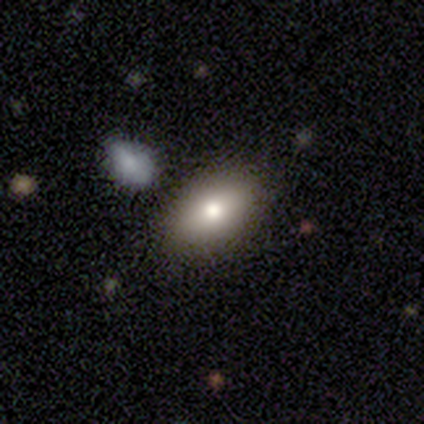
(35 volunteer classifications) Smooth or featured? 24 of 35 (69%) said smooth. How rounded? 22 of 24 (92%) said in between. Merging? 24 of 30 (80%) said none.